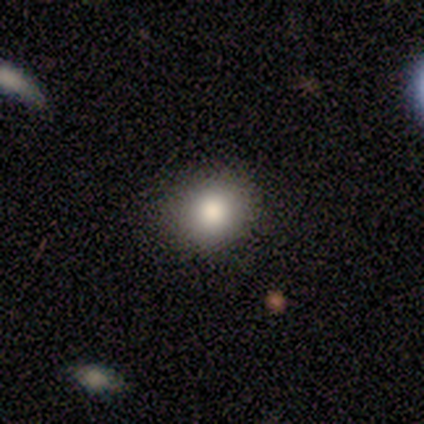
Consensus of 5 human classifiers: Q: Smooth or featured?
A: smooth (80%); runner-up: star or artifact (20%)
Q: How rounded?
A: round (50%); tied with: in between (50%)
Q: Merging?
A: none (100%)